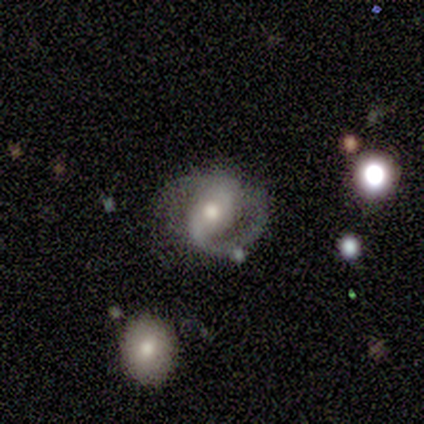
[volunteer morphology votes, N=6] featured or disk 50%, smooth 33%, star or artifact 17%. Down the decision tree: edge-on disk — no (100%); bar — strong (67%); spiral arms — yes (100%); spiral arm count — 2 (67%); spiral winding — medium (67%); bulge size — small (67%); merging — minor disturbance (40%, tied with major disturbance).